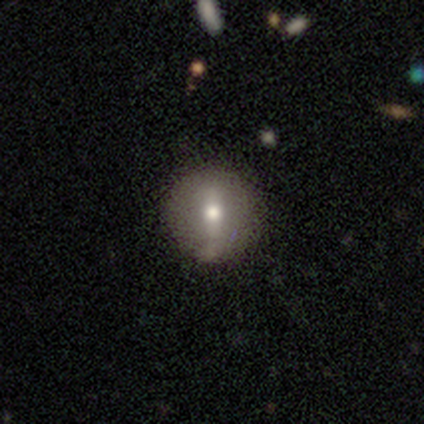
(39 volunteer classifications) smooth-or-featured: smooth: 64% | featured or disk: 36% | star or artifact: 0%
  how-rounded: round: 96% | cigar-shaped: 4% | in between: 0%
  merging: none: 46% | minor disturbance: 8% | major disturbance: 0% | merger: 0%